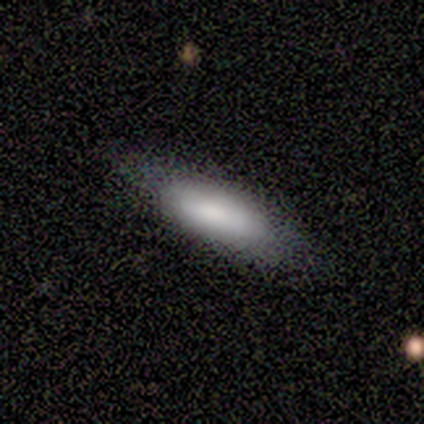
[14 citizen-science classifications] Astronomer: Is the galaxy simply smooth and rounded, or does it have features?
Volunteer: smooth — 93%.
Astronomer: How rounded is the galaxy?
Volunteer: in between — 92%.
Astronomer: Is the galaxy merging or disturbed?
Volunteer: none — 86%.